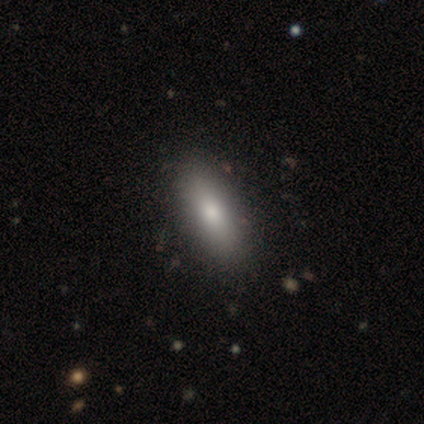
Smooth or featured? smooth (80%)
How rounded? in between (76%)
Merging? none (71%)